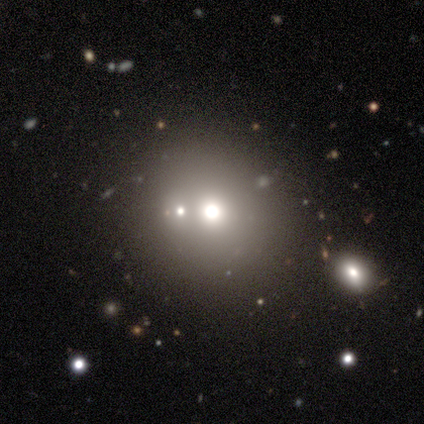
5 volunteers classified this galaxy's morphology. smooth 40% (tied), star or artifact 40% (tied), featured or disk 20%. Down the decision tree: how rounded — round (100%); merging — none (67%).